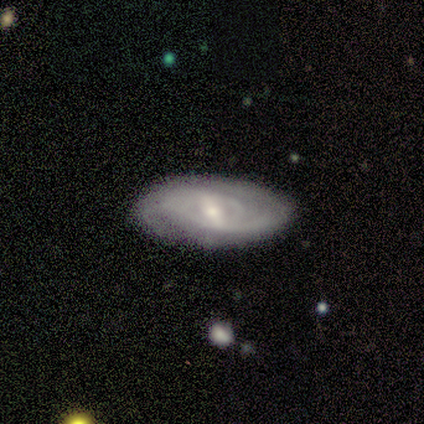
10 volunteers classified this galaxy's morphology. A featured or disk galaxy (70%) with a weak bar (71%), 2 (71%) tight (71%) spiral arms (100%) and a moderate central bulge (43%, tied with small). Merging: none (90%).